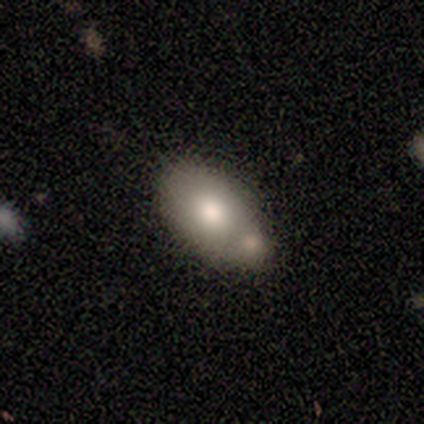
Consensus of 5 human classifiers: This is likely a smooth galaxy (60%). How rounded: likely in between (67%). Merging: marginally minor disturbance (40%, tied with merger).